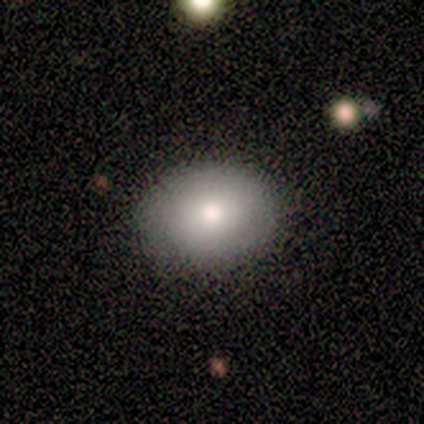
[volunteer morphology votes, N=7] Smooth or featured?
  - smooth: 86% *
  - featured or disk: 14%
  - star or artifact: 0%
How rounded?
  - round: 50% * (tied)
  - in between: 50% * (tied)
  - cigar-shaped: 0%
Merging?
  - none: 86% *
  - major disturbance: 14%
  - minor disturbance: 0%
  - merger: 0%